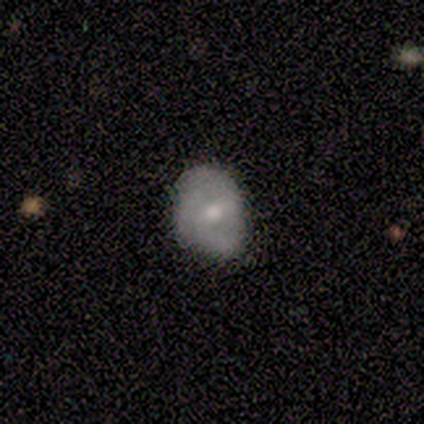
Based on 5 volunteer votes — Smooth or featured: smooth — 60% (featured or disk — 20%)
How rounded: round — 100%
Merging: none — 50% (minor disturbance — 25%)